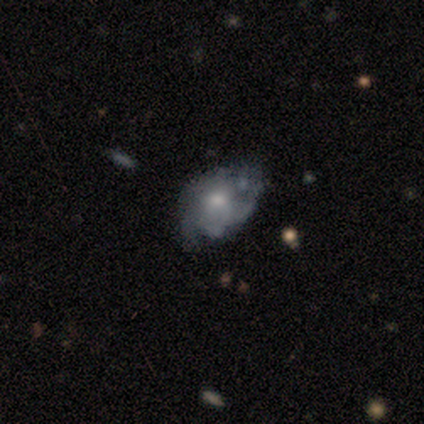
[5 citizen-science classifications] smooth_or_featured: smooth (p=0.60) [alt: featured or disk p=0.40]
how_rounded: in between (p=1.00)
merging: none (p=0.60) [alt: minor disturbance p=0.20]